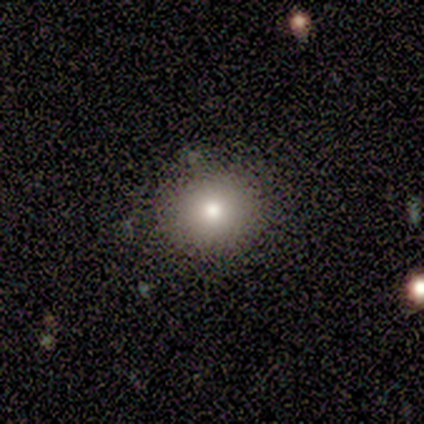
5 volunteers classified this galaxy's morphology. Smooth or featured? 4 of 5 (80%) said smooth. How rounded? 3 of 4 (75%) said round. Merging? 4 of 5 (80%) said none.